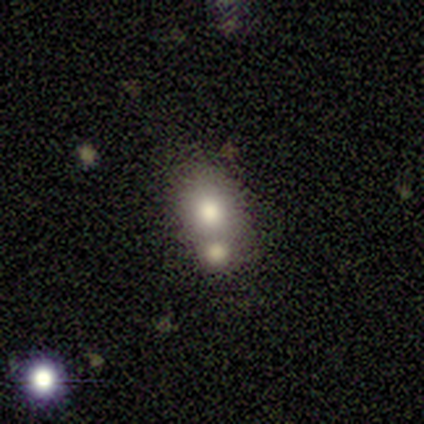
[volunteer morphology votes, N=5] smooth-or-featured: smooth: 80% | featured or disk: 20% | star or artifact: 0%
  how-rounded: round: 75% | in between: 25% | cigar-shaped: 0%
  merging: minor disturbance: 40% (tied) | merger: 40% (tied) | none: 20% | major disturbance: 0%